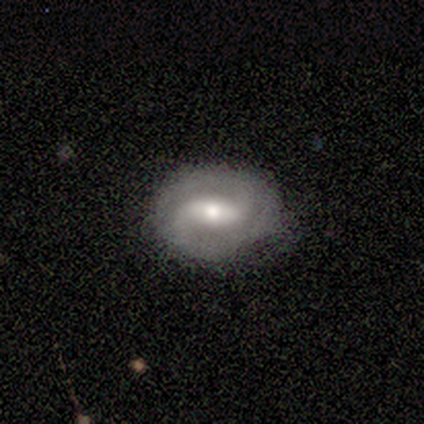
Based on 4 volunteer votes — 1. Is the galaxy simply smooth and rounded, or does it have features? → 100% featured or disk, 0% smooth, 0% star or artifact.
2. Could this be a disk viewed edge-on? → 75% no, 25% yes.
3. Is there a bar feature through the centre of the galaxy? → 100% weak, 0% strong, 0% no.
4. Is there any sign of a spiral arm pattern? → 67% yes, 33% no.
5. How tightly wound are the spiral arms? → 50% tight (tied), 50% medium (tied), 0% loose.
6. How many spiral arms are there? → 100% 2, 0% 1, 0% 3, 0% 4, 0% more than 4, 0% can't tell.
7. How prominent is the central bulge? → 67% small, 33% moderate, 0% dominant, 0% large, 0% none.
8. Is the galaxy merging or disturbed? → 100% none, 0% minor disturbance, 0% major disturbance, 0% merger.